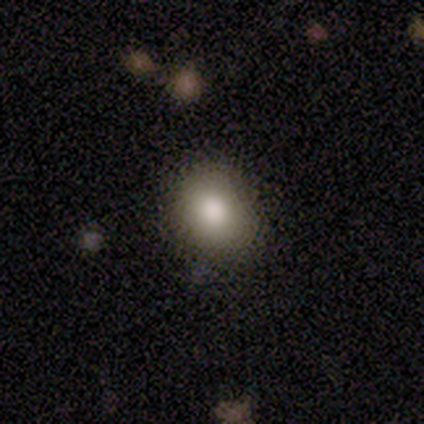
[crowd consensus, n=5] Overall: smooth (100%). How rounded: in between (60%; round 40%). Merging: none (80%).